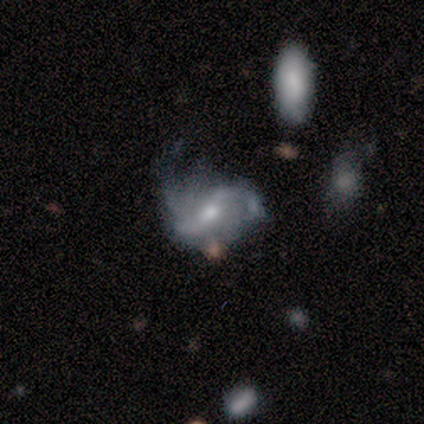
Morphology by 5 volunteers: type=featured or disk (100%); edge-on=no (100%); bar=weak (60%); spiral arms=yes (100%); winding=loose (60%); arm count=2 (80%); bulge=moderate (60%); merging=none (40%, tied with minor disturbance).